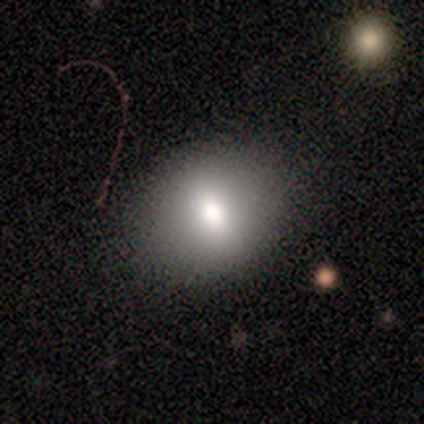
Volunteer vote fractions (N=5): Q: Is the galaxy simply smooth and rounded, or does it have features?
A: smooth — 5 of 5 (100%).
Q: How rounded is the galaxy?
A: round — 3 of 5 (60%).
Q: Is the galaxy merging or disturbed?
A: none — 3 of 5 (60%).